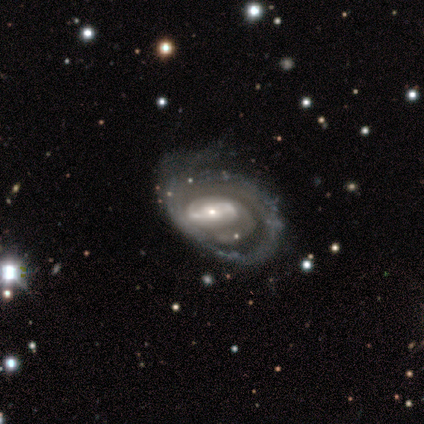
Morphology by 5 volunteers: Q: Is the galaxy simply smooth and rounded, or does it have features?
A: featured or disk — 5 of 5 (100%).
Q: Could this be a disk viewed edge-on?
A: no — 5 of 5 (100%).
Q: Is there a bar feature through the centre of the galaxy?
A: weak — 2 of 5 (40%, tied with no).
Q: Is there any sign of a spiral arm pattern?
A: yes — 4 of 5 (80%).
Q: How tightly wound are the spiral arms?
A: tight — 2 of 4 (50%).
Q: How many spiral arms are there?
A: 2 — 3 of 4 (75%).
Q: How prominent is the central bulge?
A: small — 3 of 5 (60%).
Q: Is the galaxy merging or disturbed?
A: major disturbance — 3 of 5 (60%).